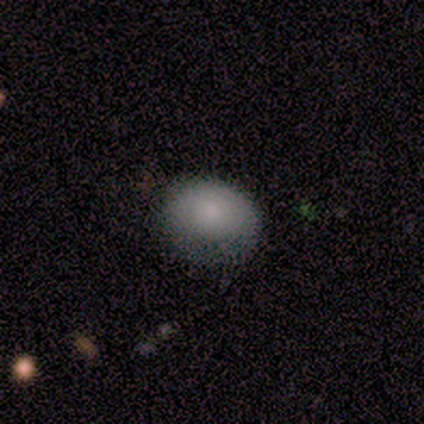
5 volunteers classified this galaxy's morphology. type=smooth (100%); roundness=in between (60%); merging=none (80%).